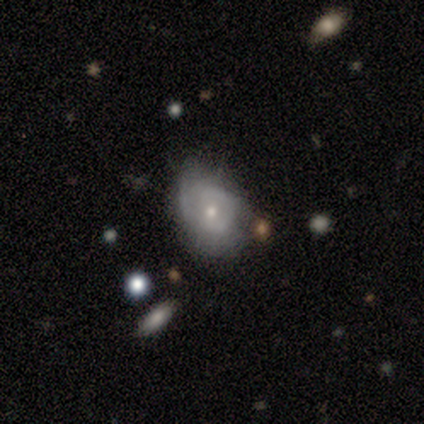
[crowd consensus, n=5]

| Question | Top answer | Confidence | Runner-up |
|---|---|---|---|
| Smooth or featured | smooth | 60% | featured or disk (20%) |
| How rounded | in between | 67% | round (33%) |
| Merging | minor disturbance | 75% | major disturbance (25%) |